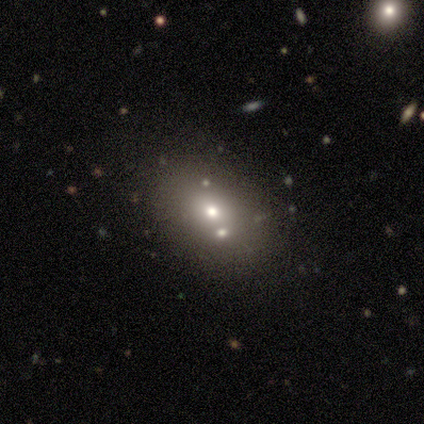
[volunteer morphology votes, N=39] smooth_or_featured: smooth (p=0.54) [alt: star or artifact p=0.26]
how_rounded: in between (p=0.67) [alt: round p=0.33]
merging: none (p=0.62) [alt: merger p=0.21]